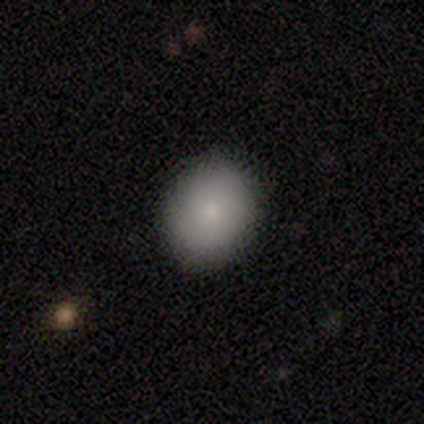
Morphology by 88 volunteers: smooth-or-featured: smooth: 83% | featured or disk: 10% | star or artifact: 7%
  how-rounded: in between: 51% | round: 49% | cigar-shaped: 0%
  merging: none: 87% | minor disturbance: 13% | major disturbance: 0% | merger: 0%